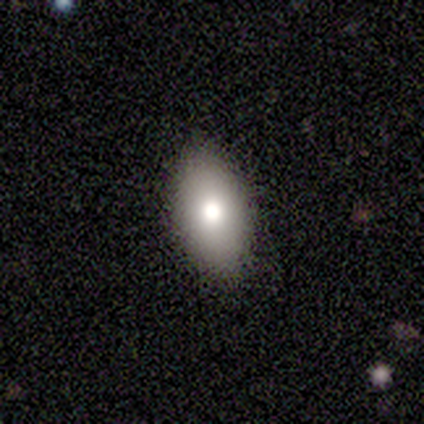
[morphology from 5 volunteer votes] Q: Smooth or featured?
A: smooth (100%)
Q: How rounded?
A: in between (100%)
Q: Merging?
A: none (100%)